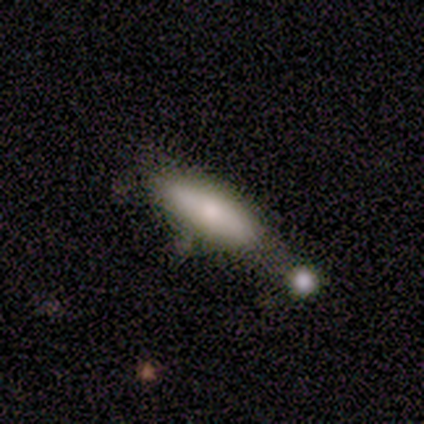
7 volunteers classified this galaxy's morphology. smooth 71%, featured or disk 29%, star or artifact 0%. Down the decision tree: how rounded — cigar-shaped (60%); merging — merger (43%).